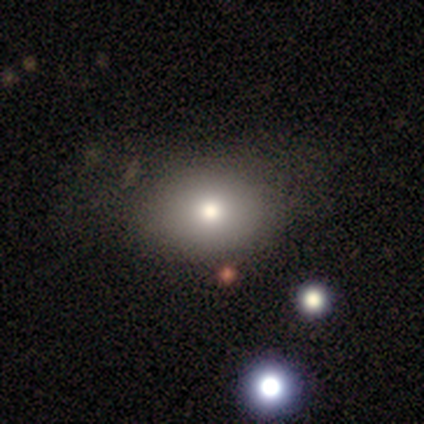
Smooth or featured? smooth (75%)
How rounded? in between (67%)
Merging? none (75%)